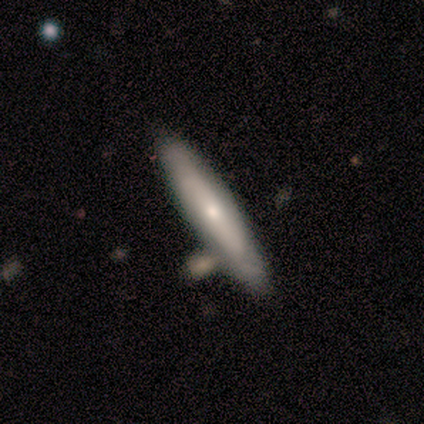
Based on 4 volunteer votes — Overall: featured or disk (100%). Edge-on disk: no (100%). Bar: no (100%). Spiral arms: no (75%). Bulge size: small (100%). Merging: none (100%).